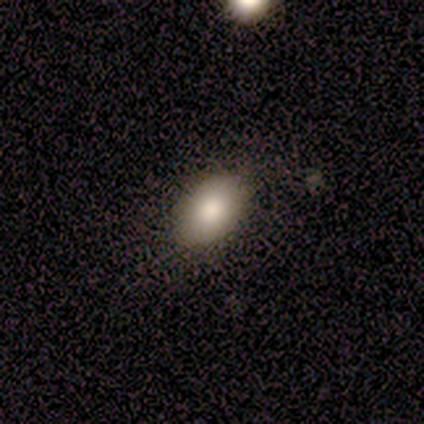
Overall: smooth (80%). How rounded: in between (100%). Merging: none (100%).